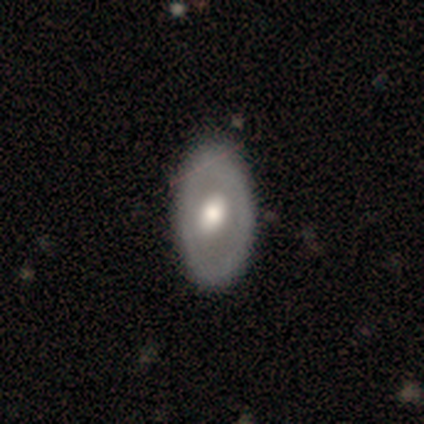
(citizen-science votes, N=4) This appears to be a smooth galaxy with no disk features (50%, tied with featured or disk) that is round (50%, tied with in between). Merging: none (50%).